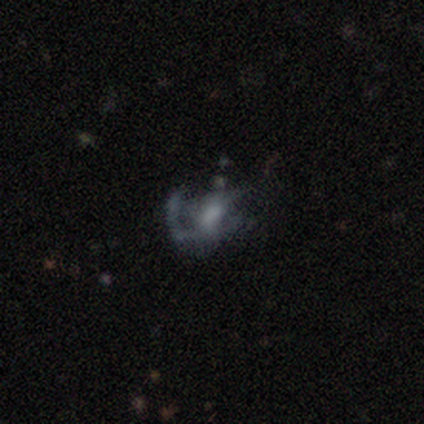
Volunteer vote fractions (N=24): smooth_or_featured: featured or disk (p=0.75) [alt: smooth p=0.12]
disk_edge_on: no (p=1.00)
bar: no (p=0.44) [alt: strong p=0.28]
has_spiral_arms: yes (p=0.67) [alt: no p=0.33]
spiral_winding: loose (p=0.58) [alt: medium p=0.33]
spiral_arm_count: 1 (p=0.58) [alt: 3 p=0.25]
bulge_size: moderate (p=0.50) [alt: none p=0.28]
merging: none (p=0.43) [alt: major disturbance p=0.38]